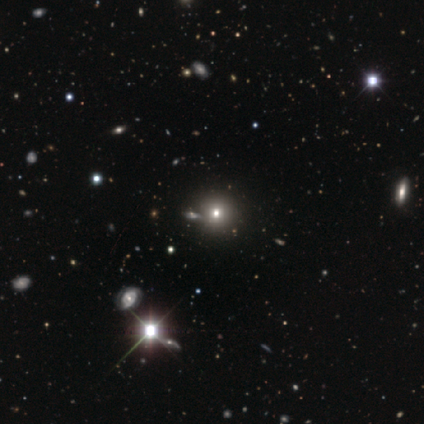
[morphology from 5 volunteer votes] Smooth or featured? smooth (80%)
How rounded? round (75%)
Merging? none (100%)